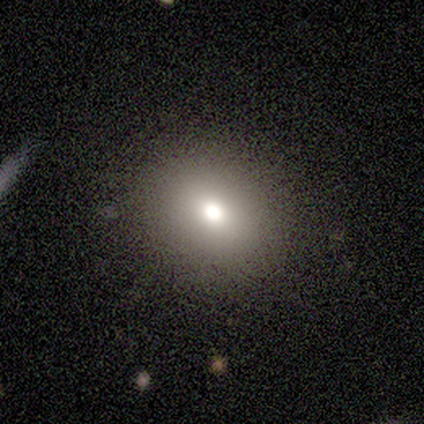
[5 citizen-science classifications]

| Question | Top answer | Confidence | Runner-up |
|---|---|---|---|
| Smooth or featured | star or artifact | 60% | smooth (20%) |